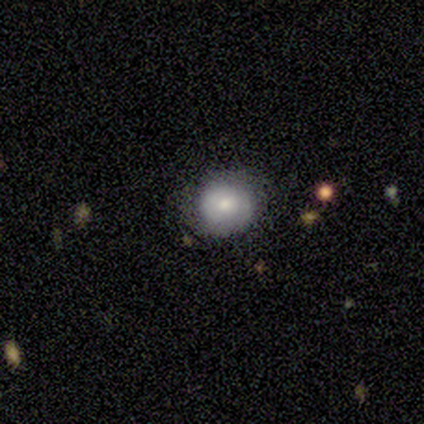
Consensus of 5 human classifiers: A smooth galaxy with no disk features (100%) that is round (80%). Merging: none (80%).